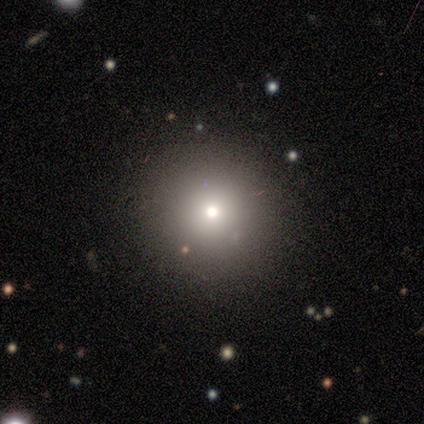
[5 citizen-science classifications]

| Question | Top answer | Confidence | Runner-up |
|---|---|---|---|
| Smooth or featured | smooth | 80% | star or artifact (20%) |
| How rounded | round | 75% | cigar-shaped (25%) |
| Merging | none | 75% | minor disturbance (25%) |